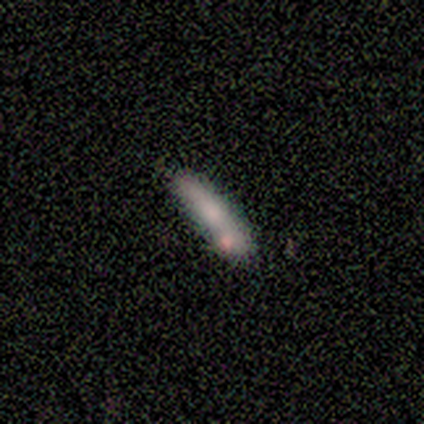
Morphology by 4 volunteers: type=smooth (75%); roundness=cigar-shaped (100%); merging=none (50%).